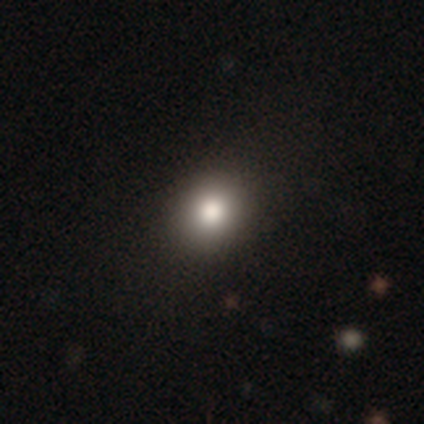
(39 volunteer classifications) This is likely a smooth galaxy (77%). How rounded: clearly round (90%). Merging: clearly none (94%).